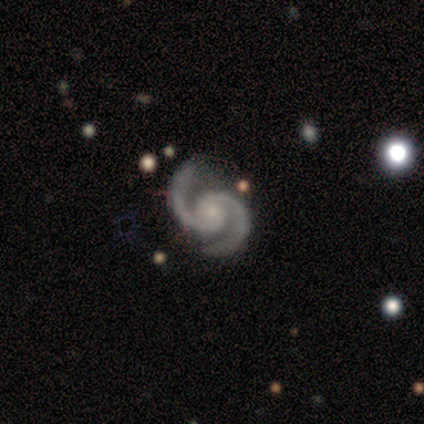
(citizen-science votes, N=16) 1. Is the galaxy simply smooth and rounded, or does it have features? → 94% featured or disk, 6% smooth, 0% star or artifact.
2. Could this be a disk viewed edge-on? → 100% no, 0% yes.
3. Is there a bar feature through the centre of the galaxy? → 87% no, 13% weak, 0% strong.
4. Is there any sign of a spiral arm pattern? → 100% yes, 0% no.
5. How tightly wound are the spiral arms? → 60% medium, 40% tight, 0% loose.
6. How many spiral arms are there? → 100% 2, 0% 1, 0% 3, 0% 4, 0% more than 4, 0% can't tell.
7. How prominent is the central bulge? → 80% small, 13% moderate, 7% large, 0% dominant, 0% none.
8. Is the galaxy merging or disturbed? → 69% none, 31% minor disturbance, 0% major disturbance, 0% merger.